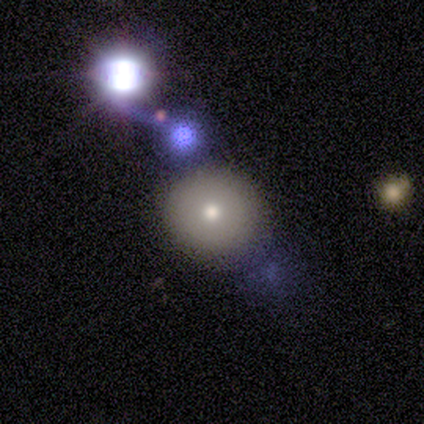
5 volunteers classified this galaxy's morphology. A smooth galaxy with no disk features (80%) that is round (100%). Merging: none (60%).